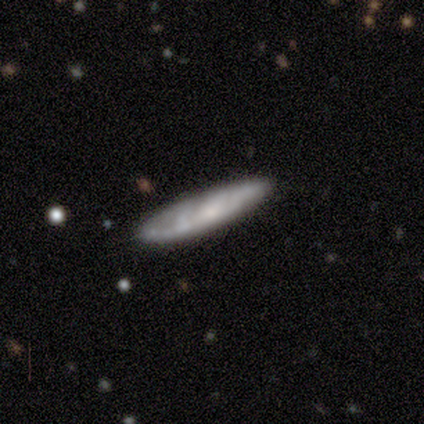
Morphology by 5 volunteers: type=featured or disk (60%); edge-on=no (67%); bar=no (100%); spiral arms=no (100%); bulge=small (100%); merging=none (100%).